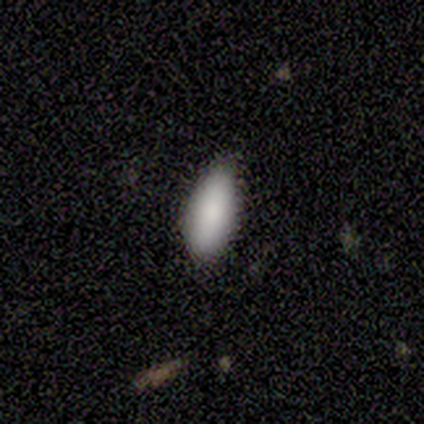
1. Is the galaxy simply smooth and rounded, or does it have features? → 80% smooth, 20% star or artifact, 0% featured or disk.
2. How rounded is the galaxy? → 100% in between, 0% round, 0% cigar-shaped.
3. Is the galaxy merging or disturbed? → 75% none, 25% minor disturbance, 0% major disturbance, 0% merger.